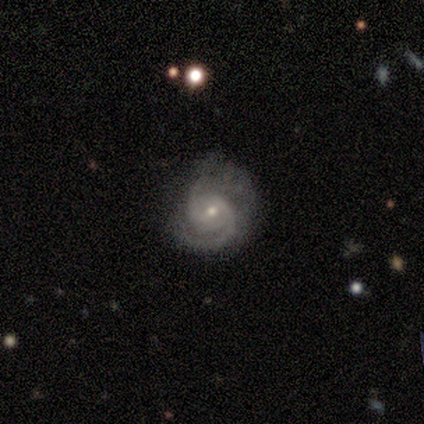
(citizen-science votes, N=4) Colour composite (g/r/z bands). It shows a featured or disk galaxy (75%) with no bar (100%), 2 (100%) tight (33%, tied with medium and loose) spiral arms (100%) and a moderate central bulge (67%). Merging: none (50%).